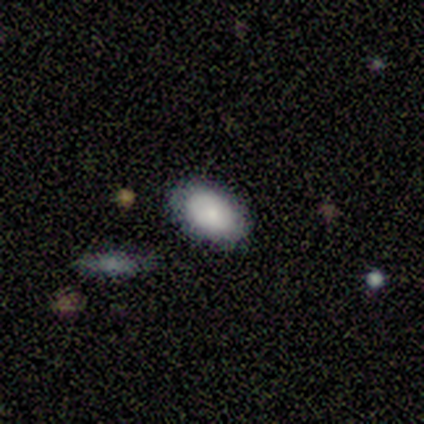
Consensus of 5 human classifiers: Smooth or featured?
  - smooth: 40% * (tied)
  - featured or disk: 40% * (tied)
  - star or artifact: 20%
How rounded?
  - in between: 100% *
  - round: 0%
  - cigar-shaped: 0%
Merging?
  - none: 75% *
  - merger: 25%
  - minor disturbance: 0%
  - major disturbance: 0%